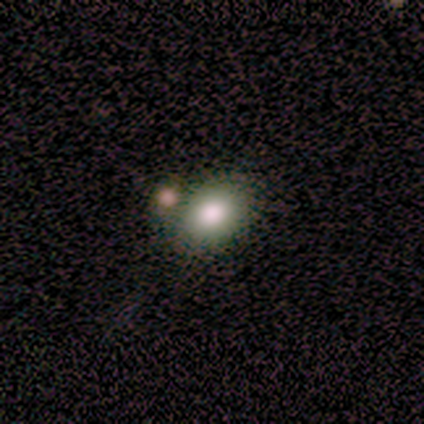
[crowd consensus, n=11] A smooth galaxy with no disk features (82%) that is in between round and cigar-shaped (89%).

Vote fractions:
- Smooth or featured? smooth: 82% / featured or disk: 9% / star or artifact: 9%
- How rounded? in between: 89% / round: 11% / cigar-shaped: 0%
- Merging? none: 50% / minor disturbance: 30% / merger: 20% / major disturbance: 0%